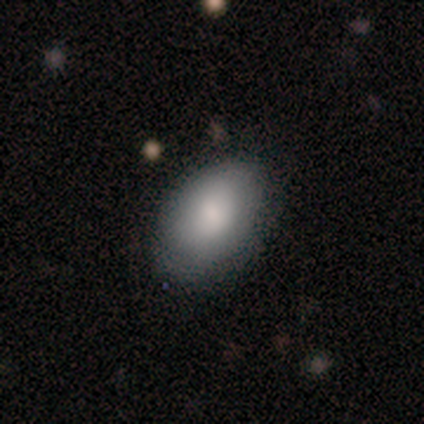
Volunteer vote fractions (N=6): smooth_or_featured: smooth (p=0.67) [alt: star or artifact p=0.33]
how_rounded: in between (p=1.00)
merging: none (p=0.50) [alt: minor disturbance p=0.25]